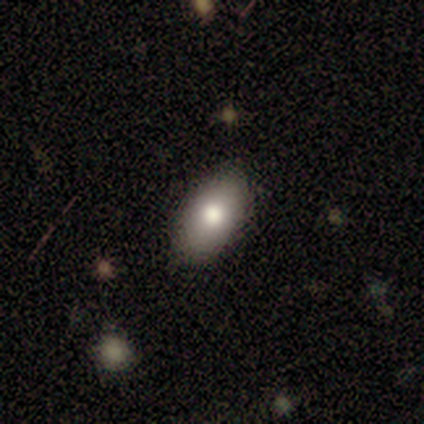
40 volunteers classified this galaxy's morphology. smooth_or_featured: smooth (p=0.72) [alt: star or artifact p=0.15]
how_rounded: in between (p=0.90) [alt: round p=0.10]
merging: none (p=0.74) [alt: minor disturbance p=0.24]